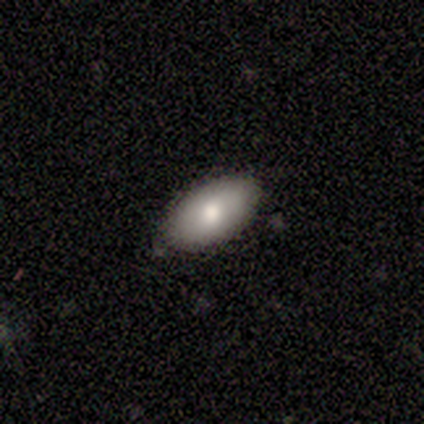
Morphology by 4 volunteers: Smooth or featured? 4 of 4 (100%) said smooth. How rounded? 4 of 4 (100%) said in between. Merging? 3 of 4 (75%) said none.